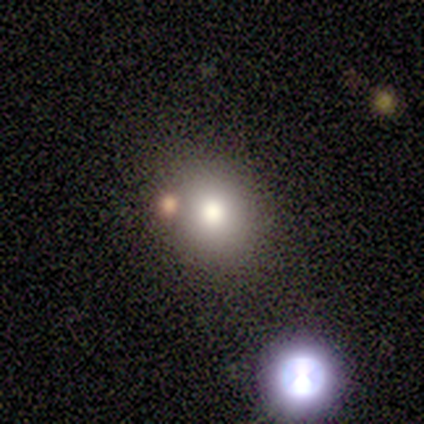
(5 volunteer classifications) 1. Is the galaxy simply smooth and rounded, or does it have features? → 60% smooth, 40% star or artifact, 0% featured or disk.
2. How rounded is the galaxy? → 100% round, 0% in between, 0% cigar-shaped.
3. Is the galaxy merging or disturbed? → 67% none, 33% merger, 0% minor disturbance, 0% major disturbance.